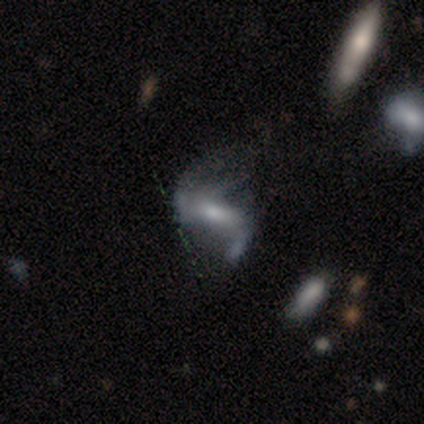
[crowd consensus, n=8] Smooth or featured? 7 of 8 (88%) said featured or disk. Edge-on disk? 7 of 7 (100%) said no. Bar? 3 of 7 (43%) said no. Spiral arms? 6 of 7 (86%) said yes. Spiral winding? 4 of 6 (67%) said loose. Spiral arm count? 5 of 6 (83%) said 2. Bulge size? 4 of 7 (57%) said moderate. Merging? 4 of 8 (50%) said minor disturbance.